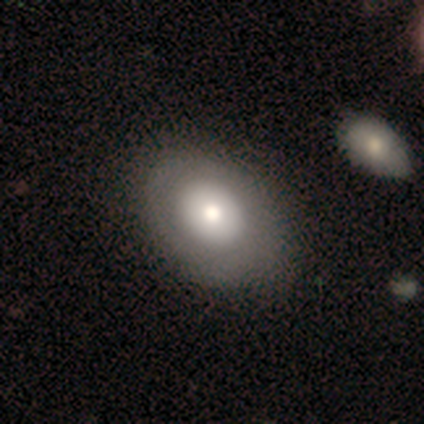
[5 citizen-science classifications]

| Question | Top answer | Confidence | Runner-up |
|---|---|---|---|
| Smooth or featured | featured or disk | 60% | smooth (40%) |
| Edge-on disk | no | 100% | — |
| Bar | no | 100% | — |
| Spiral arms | no | 100% | — |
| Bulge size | moderate | 67% | large (33%) |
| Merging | none | 80% | minor disturbance (20%) |